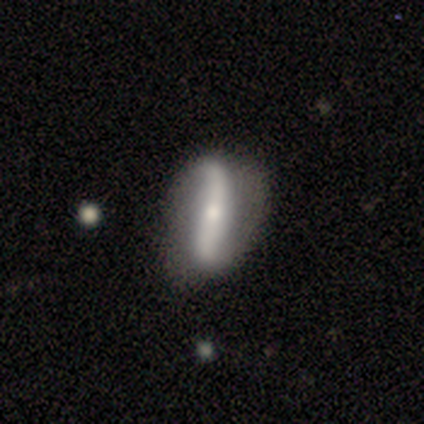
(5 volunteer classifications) This is likely a featured or disk galaxy (60%). It is likely not viewed edge-on (67%). Bar: clearly strong (100%). Spiral arm pattern: clearly yes (100%). Spiral arm count: clearly 2 (100%). Spiral winding: clearly loose (100%). Central bulge: possibly moderate (50%, tied with small). Merging: possibly none (50%, tied with minor disturbance).